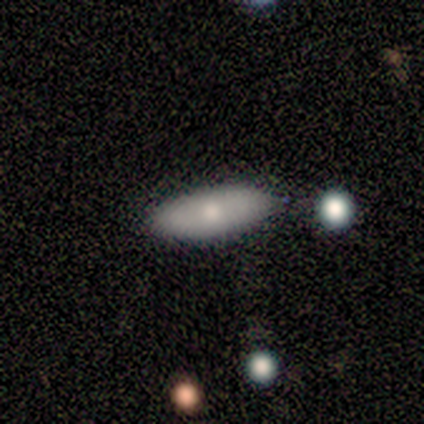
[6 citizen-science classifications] Smooth or featured? 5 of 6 (83%) said smooth. How rounded? 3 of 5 (60%) said in between. Merging? 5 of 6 (83%) said none.